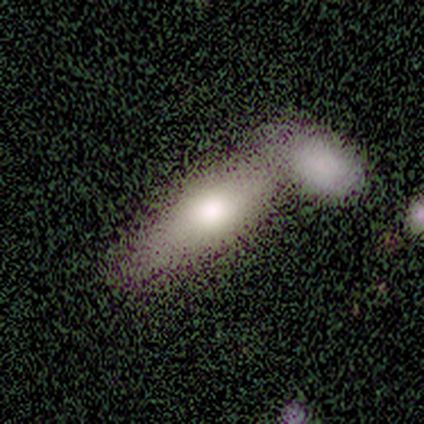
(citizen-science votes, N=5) This is likely a smooth galaxy (60%). How rounded: clearly in between (100%). Merging: clearly merger (100%).